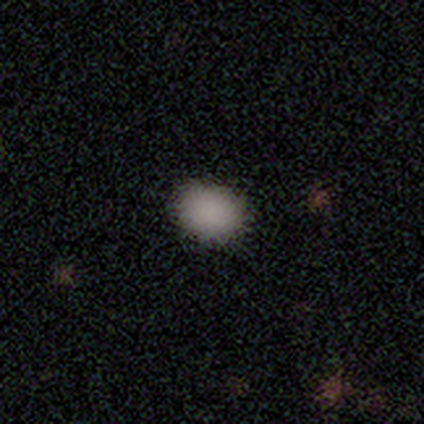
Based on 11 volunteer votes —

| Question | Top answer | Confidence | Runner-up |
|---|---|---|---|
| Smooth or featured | smooth | 82% | star or artifact (18%) |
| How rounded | in between | 56% | round (44%) |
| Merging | none | 100% | — |